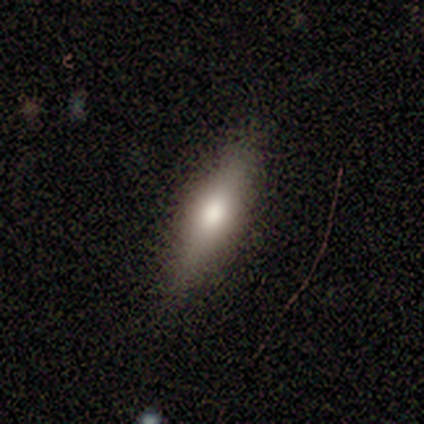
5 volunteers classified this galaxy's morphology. Smooth or featured: featured or disk — 60% (smooth — 20%)
Edge-on disk: yes — 100%
Edge-on bulge: rounded — 100%
Merging: none — 100%